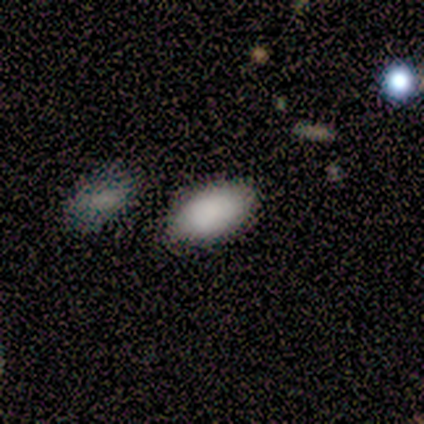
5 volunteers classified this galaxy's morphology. smooth_or_featured: smooth (p=1.00)
how_rounded: in between (p=1.00)
merging: none (p=0.60) [alt: minor disturbance p=0.20]